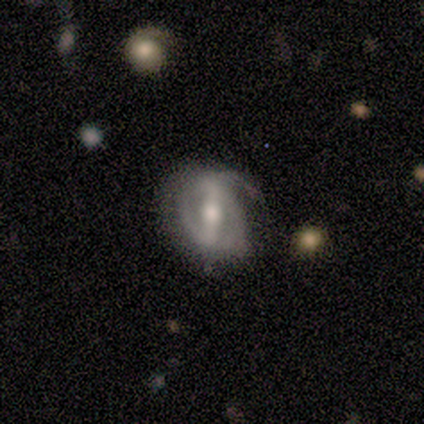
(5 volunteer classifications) Volunteers were most divided on "spiral winding" (2-way tie): tight: 50%, loose: 50%, medium: 0%. More confident: edge-on disk — no (100%); spiral arms — yes (100%); smooth or featured — featured or disk (80%); bulge size — moderate (75%); merging — none (60%); bar — strong (50%); spiral arm count — can't tell (50%).